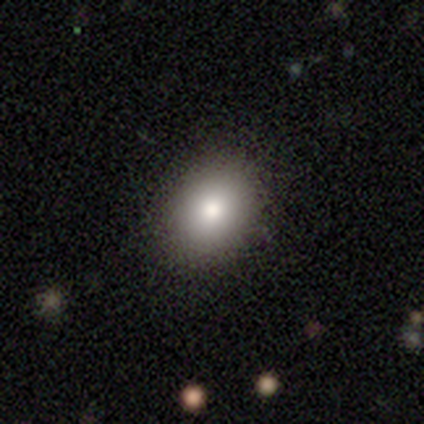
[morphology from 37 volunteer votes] Smooth or featured? 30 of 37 (81%) said smooth. How rounded? 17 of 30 (57%) said in between. Merging? 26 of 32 (81%) said none.